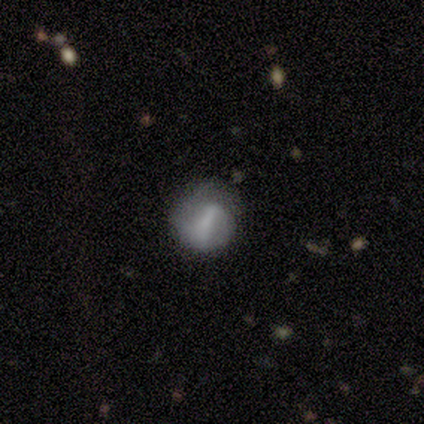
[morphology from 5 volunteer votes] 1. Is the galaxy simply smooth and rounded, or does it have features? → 80% featured or disk, 20% smooth, 0% star or artifact.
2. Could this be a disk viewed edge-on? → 100% no, 0% yes.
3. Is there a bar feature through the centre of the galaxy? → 50% strong (tied), 50% weak (tied), 0% no.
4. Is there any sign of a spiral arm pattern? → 50% yes (tied), 50% no (tied).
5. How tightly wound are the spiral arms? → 50% medium (tied), 50% loose (tied), 0% tight.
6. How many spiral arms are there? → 50% 2 (tied), 50% can't tell (tied), 0% 1, 0% 3, 0% 4, 0% more than 4.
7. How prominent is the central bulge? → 100% none, 0% dominant, 0% large, 0% moderate, 0% small.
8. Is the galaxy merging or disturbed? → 40% none (tied), 40% minor disturbance (tied), 20% major disturbance, 0% merger.